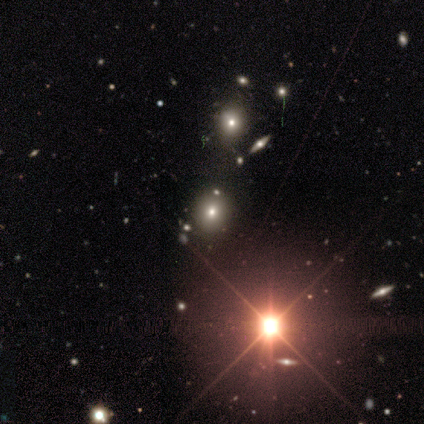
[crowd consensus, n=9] A star or artifact, not a galaxy (67%).